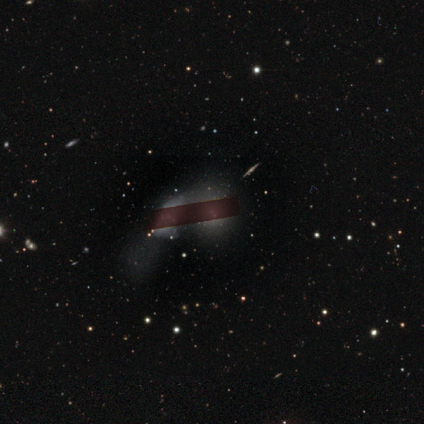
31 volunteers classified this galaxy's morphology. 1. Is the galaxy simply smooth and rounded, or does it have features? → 35% smooth, 32% featured or disk, 32% star or artifact.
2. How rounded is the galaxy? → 55% in between, 36% round, 9% cigar-shaped.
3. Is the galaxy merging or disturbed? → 62% merger, 14% none, 14% minor disturbance, 10% major disturbance.